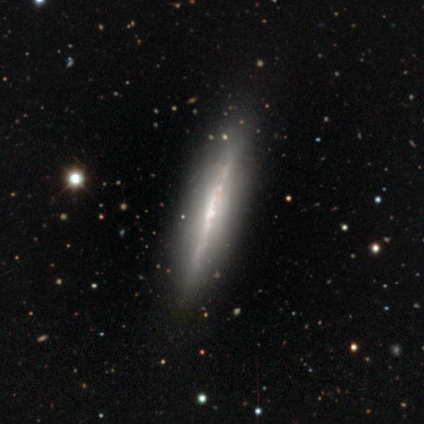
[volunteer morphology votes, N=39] Smooth or featured? 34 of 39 (87%) said featured or disk. Edge-on disk? 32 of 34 (94%) said yes. Edge-on bulge? 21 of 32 (66%) said none. Merging? 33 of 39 (85%) said none.